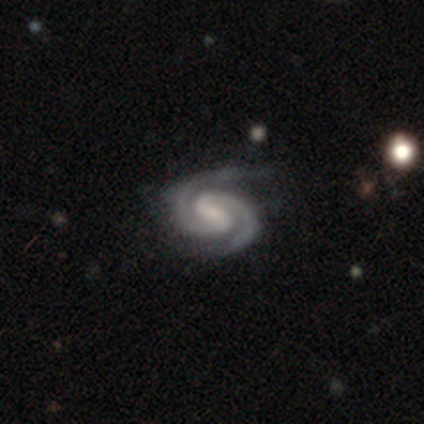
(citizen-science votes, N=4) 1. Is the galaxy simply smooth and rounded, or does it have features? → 100% featured or disk, 0% smooth, 0% star or artifact.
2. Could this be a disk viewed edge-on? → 100% no, 0% yes.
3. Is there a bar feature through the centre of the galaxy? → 50% strong, 25% weak, 25% no.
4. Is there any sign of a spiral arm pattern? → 100% yes, 0% no.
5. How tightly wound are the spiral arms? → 100% tight, 0% medium, 0% loose.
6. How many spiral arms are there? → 100% 2, 0% 1, 0% 3, 0% 4, 0% more than 4, 0% can't tell.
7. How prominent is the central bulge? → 50% small (tied), 50% none (tied), 0% dominant, 0% large, 0% moderate.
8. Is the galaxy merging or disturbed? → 50% none, 25% minor disturbance, 25% major disturbance, 0% merger.